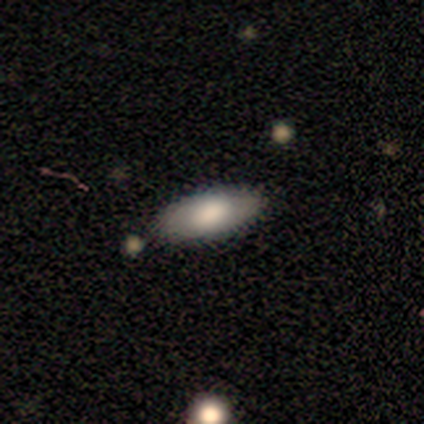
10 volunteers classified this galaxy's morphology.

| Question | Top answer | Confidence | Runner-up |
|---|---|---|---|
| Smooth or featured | smooth | 90% | featured or disk (10%) |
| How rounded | in between | 78% | cigar-shaped (22%) |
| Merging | none | 90% | merger (10%) |